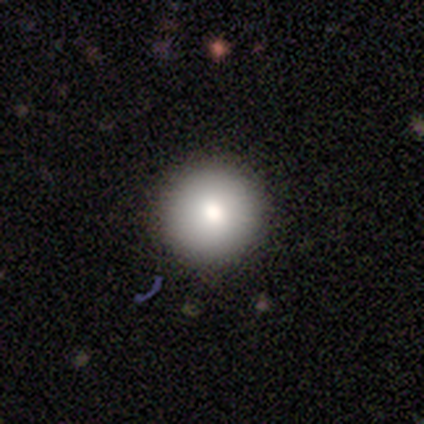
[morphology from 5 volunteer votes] smooth-or-featured: smooth: 80% | star or artifact: 20% | featured or disk: 0%
  how-rounded: round: 100% | in between: 0% | cigar-shaped: 0%
  merging: none: 100% | minor disturbance: 0% | major disturbance: 0% | merger: 0%